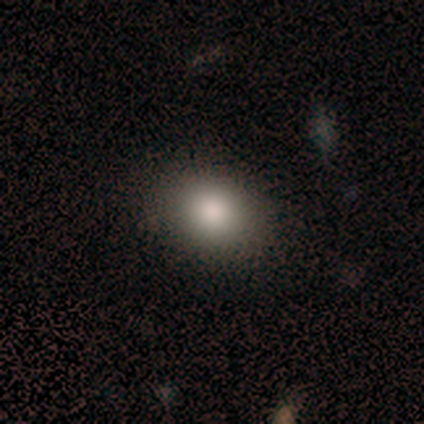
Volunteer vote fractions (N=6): Smooth or featured? 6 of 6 (100%) said smooth. How rounded? 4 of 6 (67%) said in between. Merging? 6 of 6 (100%) said none.